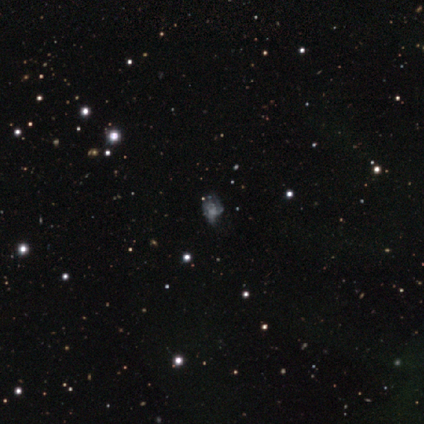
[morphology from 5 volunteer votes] Smooth or featured? smooth (40%, tied with featured or disk)
How rounded? round (50%, tied with in between)
Merging? none (50%, tied with minor disturbance)